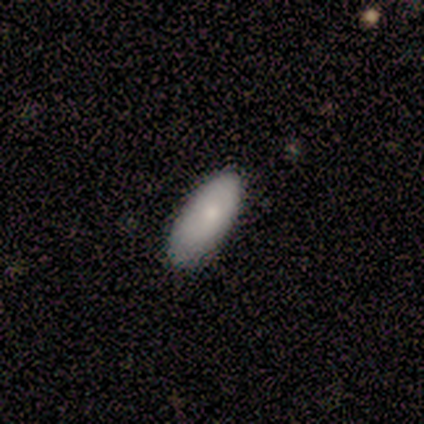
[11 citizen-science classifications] smooth 100%, featured or disk 0%, star or artifact 0%. Down the decision tree: how rounded — in between (64%); merging — none (91%).